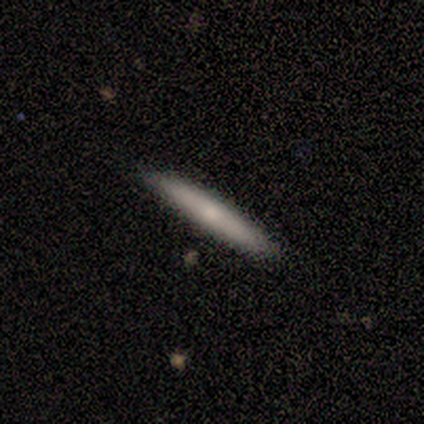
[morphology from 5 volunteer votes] This is clearly a smooth galaxy (100%). How rounded: clearly cigar-shaped (100%). Merging: clearly none (80%).